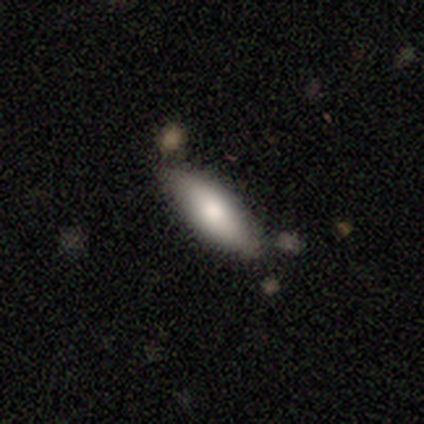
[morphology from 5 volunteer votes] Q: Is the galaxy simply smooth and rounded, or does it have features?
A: smooth — 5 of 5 (100%).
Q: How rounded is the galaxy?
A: in between — 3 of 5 (60%).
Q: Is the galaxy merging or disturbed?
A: none — 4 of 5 (80%).